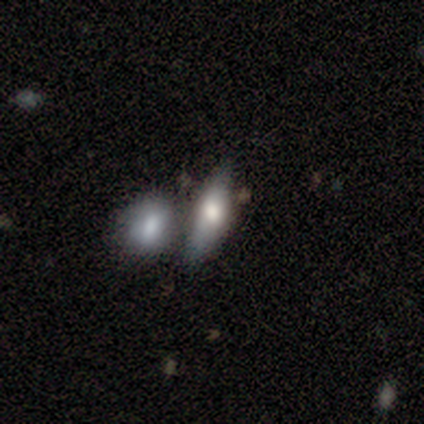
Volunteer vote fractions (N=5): Morphology: type=smooth (80%); roundness=cigar-shaped (100%); merging=none (60%).